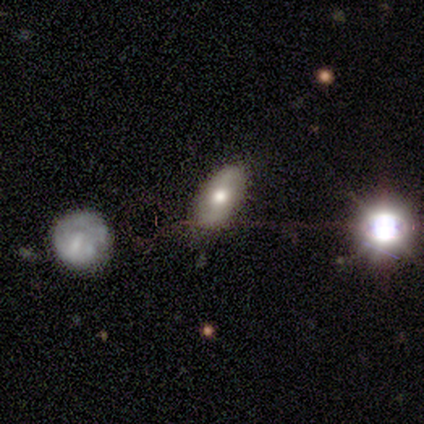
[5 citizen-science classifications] A smooth galaxy with no disk features (80%) that is in between round and cigar-shaped (100%).

Vote fractions:
- Smooth or featured? smooth: 80% / star or artifact: 20% / featured or disk: 0%
- How rounded? in between: 100% / round: 0% / cigar-shaped: 0%
- Merging? none: 75% / minor disturbance: 25% / major disturbance: 0% / merger: 0%